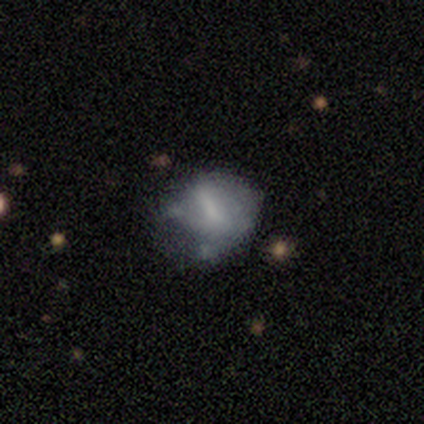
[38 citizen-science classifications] Smooth or featured?
  - featured or disk: 47% *
  - smooth: 45%
  - star or artifact: 8%
Edge-on disk?
  - no: 94% *
  - yes: 6%
Bar?
  - no: 47% *
  - weak: 29%
  - strong: 24%
Spiral arms?
  - no: 65% *
  - yes: 35%
Bulge size?
  - none: 59% *
  - small: 35%
  - large: 6%
  - dominant: 0%
  - moderate: 0%
Merging?
  - minor disturbance: 37% *
  - none: 34%
  - major disturbance: 23%
  - merger: 6%